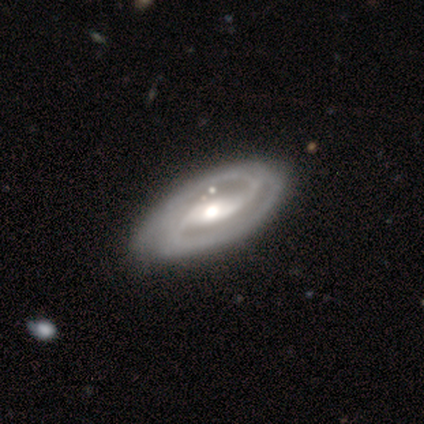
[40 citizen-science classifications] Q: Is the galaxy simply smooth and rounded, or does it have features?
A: featured or disk — 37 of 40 (92%).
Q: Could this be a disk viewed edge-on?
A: no — 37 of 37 (100%).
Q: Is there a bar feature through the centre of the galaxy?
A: strong — 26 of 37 (70%).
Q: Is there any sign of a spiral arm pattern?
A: yes — 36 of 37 (97%).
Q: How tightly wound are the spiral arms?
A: tight — 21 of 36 (58%).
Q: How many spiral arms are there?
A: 2 — 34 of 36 (94%).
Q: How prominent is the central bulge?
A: moderate — 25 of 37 (68%).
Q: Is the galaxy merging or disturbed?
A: none — 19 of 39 (49%).